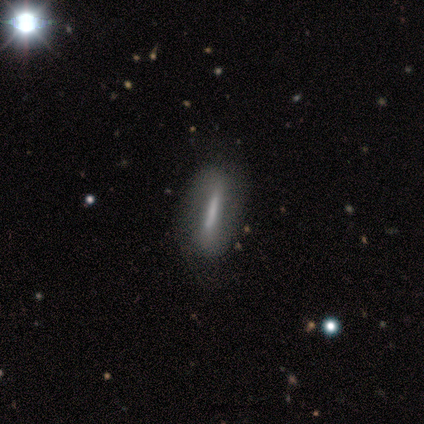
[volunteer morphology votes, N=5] Smooth or featured?
  - featured or disk: 60% *
  - smooth: 20%
  - star or artifact: 20%
Edge-on disk?
  - no: 67% *
  - yes: 33%
Bar?
  - strong: 100% *
  - weak: 0%
  - no: 0%
Spiral arms?
  - no: 100% *
  - yes: 0%
Bulge size?
  - none: 100% *
  - dominant: 0%
  - large: 0%
  - moderate: 0%
  - small: 0%
Merging?
  - none: 50% *
  - minor disturbance: 25%
  - major disturbance: 25%
  - merger: 0%